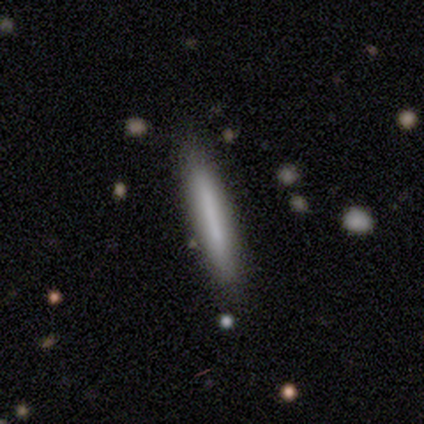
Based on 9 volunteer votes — Smooth or featured? smooth (67%)
How rounded? cigar-shaped (100%)
Merging? none (89%)